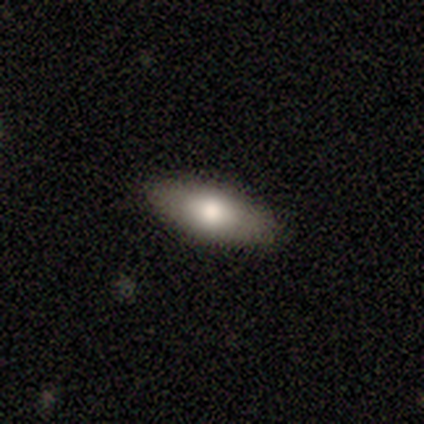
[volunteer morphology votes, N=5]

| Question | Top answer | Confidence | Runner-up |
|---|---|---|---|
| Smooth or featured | smooth | 40% | tied: featured or disk (40%) |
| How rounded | in between | 50% | tied: cigar-shaped (50%) |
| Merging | none | 75% | major disturbance (25%) |